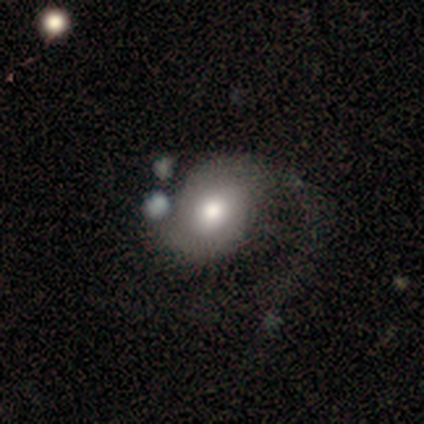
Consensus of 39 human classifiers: featured or disk 67%, smooth 33%, star or artifact 0%. Down the decision tree: edge-on disk — no (100%); bar — no (73%); spiral arms — yes (73%); spiral arm count — 2 (63%); spiral winding — loose (53%); bulge size — moderate (46%); merging — major disturbance (38%).